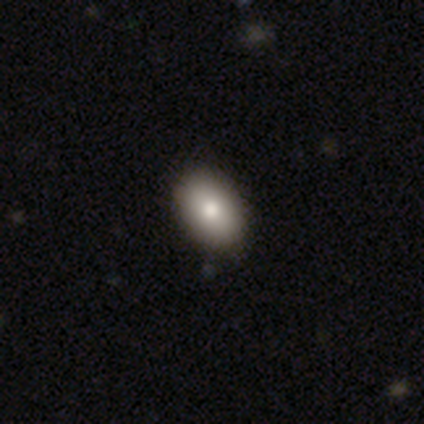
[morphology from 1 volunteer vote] A smooth galaxy with no disk features (100%) that is in between round and cigar-shaped (100%).

Vote fractions:
- Smooth or featured? smooth: 100% / featured or disk: 0% / star or artifact: 0%
- How rounded? in between: 100% / round: 0% / cigar-shaped: 0%
- Merging? none: 100% / minor disturbance: 0% / major disturbance: 0% / merger: 0%